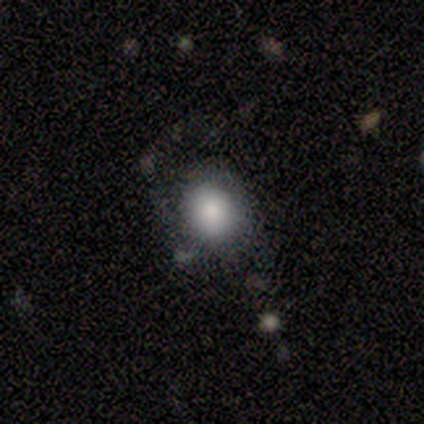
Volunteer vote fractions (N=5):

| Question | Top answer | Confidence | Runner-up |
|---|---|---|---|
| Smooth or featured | smooth | 60% | featured or disk (40%) |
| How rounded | round | 100% | — |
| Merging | none | 60% | major disturbance (40%) |